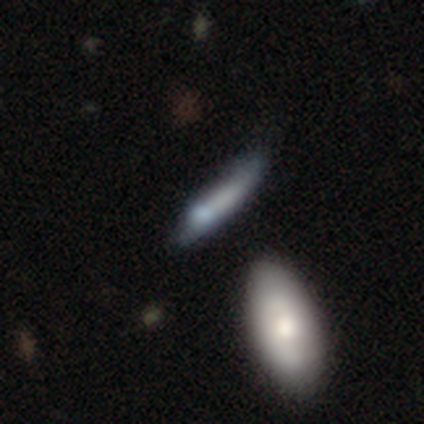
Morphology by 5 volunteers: smooth-or-featured: featured or disk: 60% | smooth: 40% | star or artifact: 0%
  disk-edge-on: yes: 100% | no: 0%
    edge-on-bulge: boxy: 33% (tied) | none: 33% (tied) | rounded: 33% (tied)
  merging: none: 80% | minor disturbance: 20% | major disturbance: 0% | merger: 0%